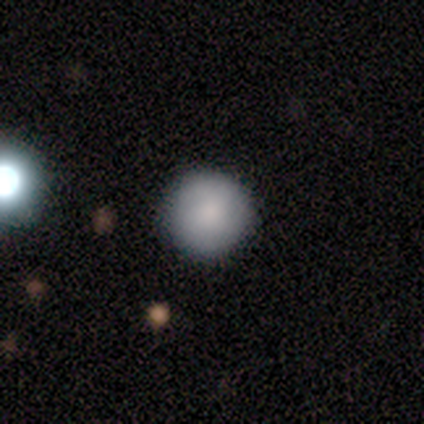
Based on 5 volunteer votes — This appears to be a smooth galaxy with no disk features (100%) that is round (100%). Merging: none (100%).